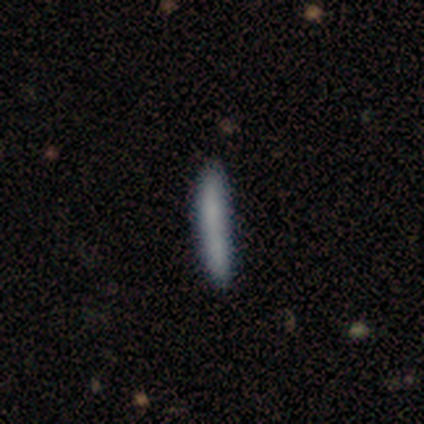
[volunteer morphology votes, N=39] Overall: smooth (77%). How rounded: cigar-shaped (100%). Merging: none (64%).